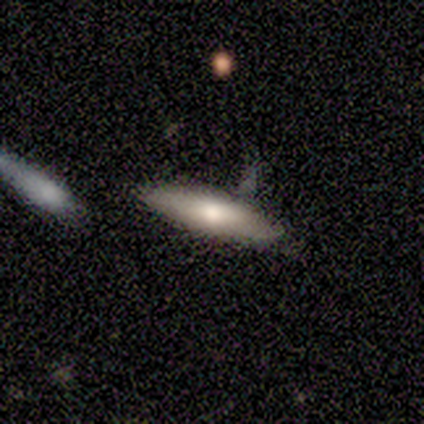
Overall: featured or disk (60%; smooth 40%). Edge-on disk: no (67%; yes 33%). Bar: weak (50%, tied with no). Spiral arms: no (100%). Bulge size: moderate (100%). Merging: none (80%).